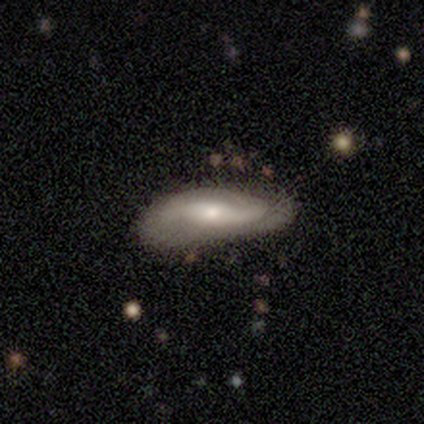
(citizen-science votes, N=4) Smooth or featured? 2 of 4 (50%, tied with featured or disk) said smooth. How rounded? 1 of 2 (50%, tied with cigar-shaped) said in between. Merging? 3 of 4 (75%) said none.